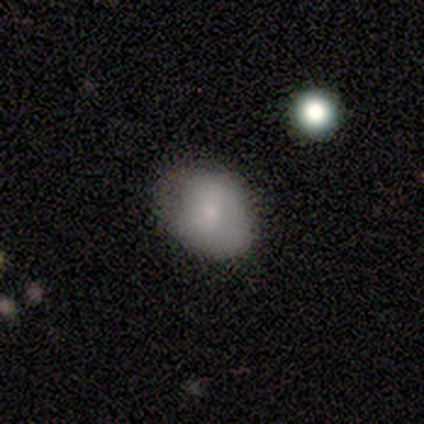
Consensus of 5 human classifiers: Smooth or featured? smooth (100%)
How rounded? in between (60%)
Merging? none (60%)